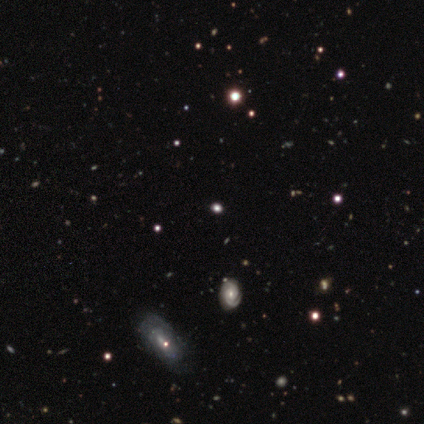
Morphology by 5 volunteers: Volunteers were most divided on "smooth or featured" (2-way tie): featured or disk: 40%, star or artifact: 40%, smooth: 20%; "edge-on disk" (2-way tie): yes: 50%, no: 50%. More confident: edge-on bulge — none (100%); merging — none (67%).